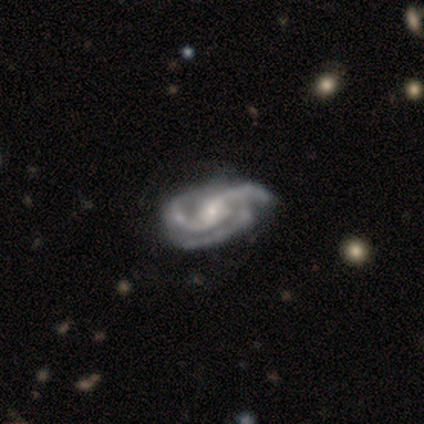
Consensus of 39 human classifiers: Overall: featured or disk (95%). Edge-on disk: no (100%). Bar: no (54%; weak 27%). Spiral arms: yes (100%). Spiral arm count: 3 (57%; 2 41%). Spiral winding: medium (51%; tight 27%). Bulge size: small (62%; moderate 35%). Merging: none (37%; minor disturbance 13%).